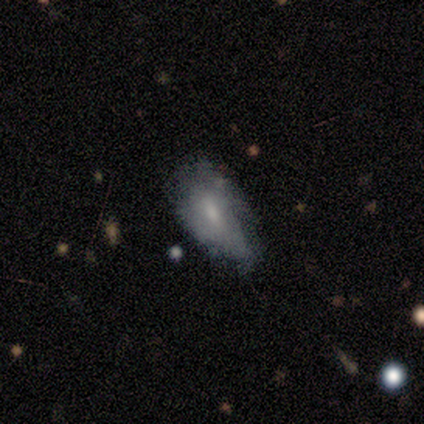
Volunteers were most divided on "bar" (2-way tie): weak: 50%, no: 50%, strong: 0%; "spiral arms" (2-way tie): yes: 50%, no: 50%; "spiral arm count" (3-way tie): 2: 33%, 3: 33%, can't tell: 33%, 1: 0%, 4: 0%, more than 4: 0%; "bulge size" (2-way tie): moderate: 50%, small: 50%, dominant: 0%, large: 0%, none: 0%. Remaining: edge-on disk — no (86%); spiral winding — tight (67%); smooth or featured — featured or disk (47%); merging — minor disturbance (46%).